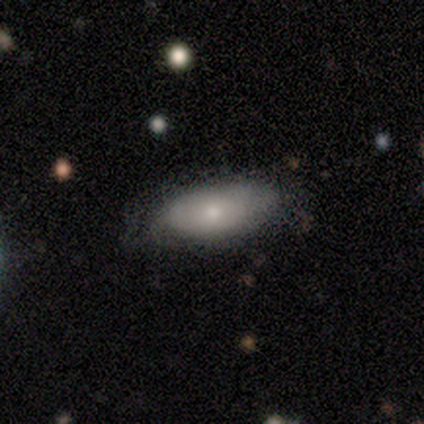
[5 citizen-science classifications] smooth 80%, featured or disk 20%, star or artifact 0%. Down the decision tree: how rounded — in between (75%); merging — none (80%).